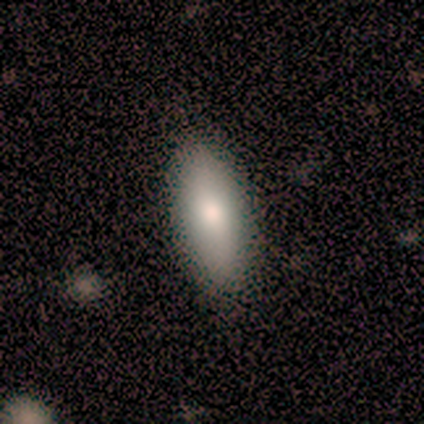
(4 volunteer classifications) smooth 100%, featured or disk 0%, star or artifact 0%. Down the decision tree: how rounded — in between (75%); merging — none (75%).